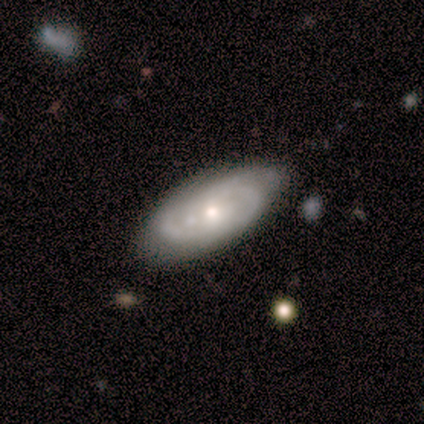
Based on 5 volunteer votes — Q: Smooth or featured?
A: featured or disk (100%)
Q: Edge-on disk?
A: no (100%)
Q: Bar?
A: no (80%); runner-up: strong (20%)
Q: Spiral arms?
A: yes (80%); runner-up: no (20%)
Q: Spiral winding?
A: tight (75%); runner-up: medium (25%)
Q: Spiral arm count?
A: can't tell (50%); runner-up: 2 (25%)
Q: Bulge size?
A: small (60%); runner-up: moderate (40%)
Q: Merging?
A: none (80%); runner-up: minor disturbance (20%)